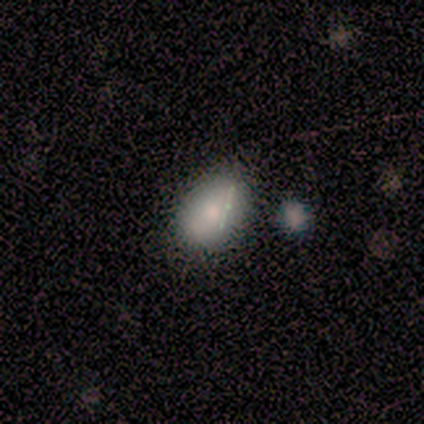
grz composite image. It shows a smooth galaxy with no disk features (100%) that is in between round and cigar-shaped (100%). Merging: none (80%).